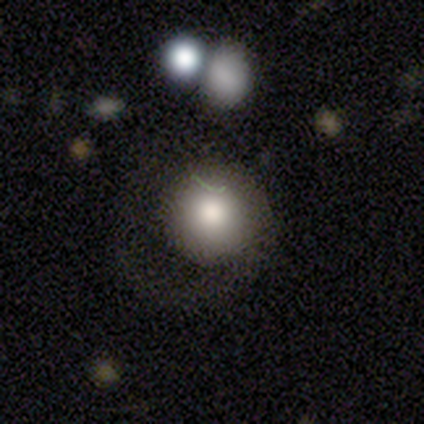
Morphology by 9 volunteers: smooth 89%, star or artifact 11%, featured or disk 0%. Down the decision tree: how rounded — round (88%); merging — none (50%).